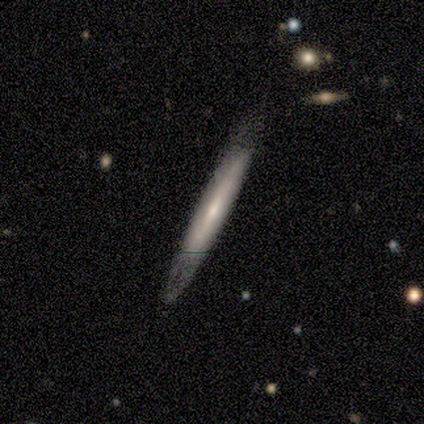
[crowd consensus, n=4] smooth 50%, featured or disk 25%, star or artifact 25%. Down the decision tree: how rounded — cigar-shaped (100%); merging — none (67%).